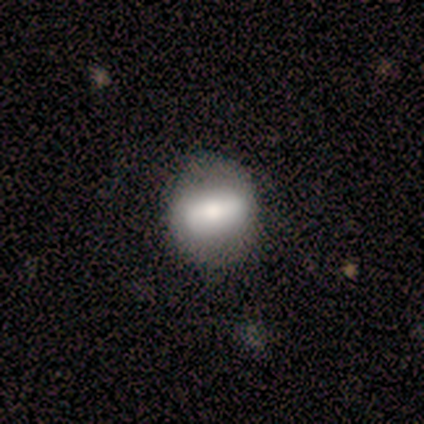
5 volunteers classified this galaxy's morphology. smooth-or-featured: smooth: 80% | featured or disk: 20% | star or artifact: 0%
  how-rounded: in between: 75% | round: 25% | cigar-shaped: 0%
  merging: none: 80% | major disturbance: 20% | minor disturbance: 0% | merger: 0%